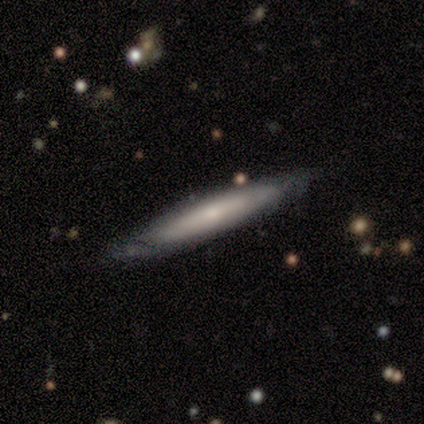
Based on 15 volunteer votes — smooth_or_featured: smooth (p=0.53) [alt: featured or disk p=0.47]
how_rounded: cigar-shaped (p=0.88) [alt: in between p=0.12]
merging: none (p=0.87) [alt: minor disturbance p=0.13]